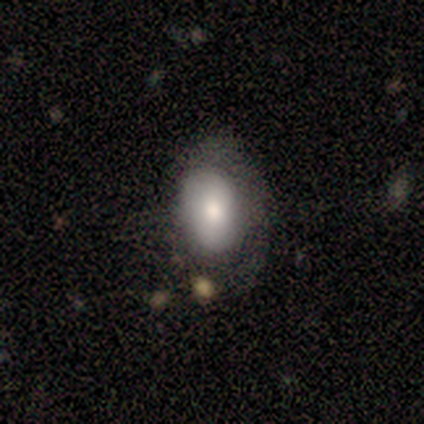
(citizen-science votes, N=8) A smooth galaxy with no disk features (75%) that is in between round and cigar-shaped (83%). Merging: none (38%, tied with minor disturbance).